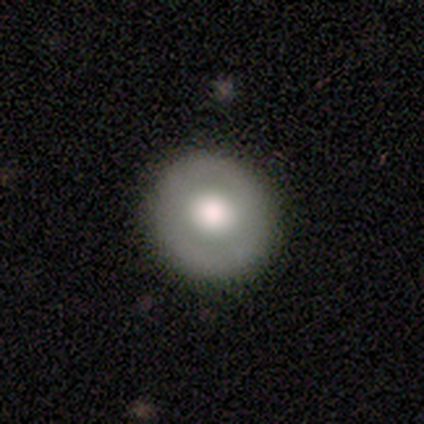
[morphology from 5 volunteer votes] This appears to be a smooth galaxy with no disk features (60%) that is round (100%). Merging: none (100%).